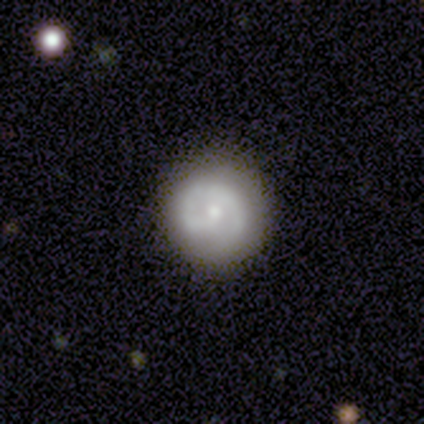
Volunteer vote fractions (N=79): smooth_or_featured: featured or disk (p=0.49) [alt: smooth p=0.48]
disk_edge_on: no (p=1.00)
bar: no (p=0.82) [alt: weak p=0.15]
has_spiral_arms: yes (p=0.79) [alt: no p=0.21]
spiral_winding: tight (p=0.61) [alt: medium p=0.32]
spiral_arm_count: 1 (p=0.65) [alt: 2 p=0.32]
bulge_size: moderate (p=0.51) [alt: small p=0.44]
merging: none (p=0.38) [alt: minor disturbance p=0.08]